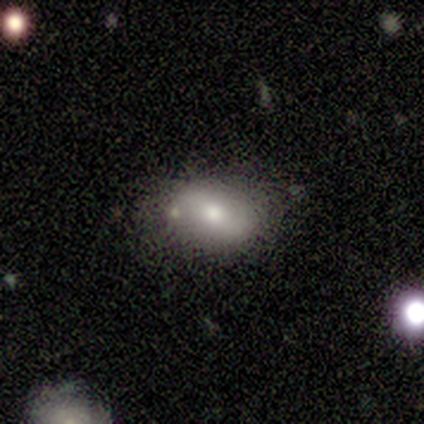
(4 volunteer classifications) smooth-or-featured: smooth: 50% | featured or disk: 25% | star or artifact: 25%
  how-rounded: round: 50% (tied) | in between: 50% (tied) | cigar-shaped: 0%
  merging: none: 67% | minor disturbance: 33% | major disturbance: 0% | merger: 0%